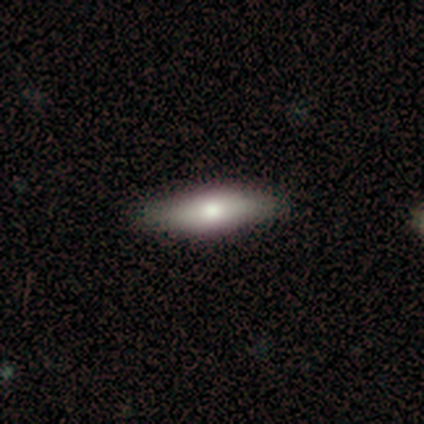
smooth_or_featured: smooth (p=0.40) [tied with: featured or disk p=0.40]
how_rounded: in between (p=1.00)
merging: none (p=0.75) [alt: minor disturbance p=0.25]